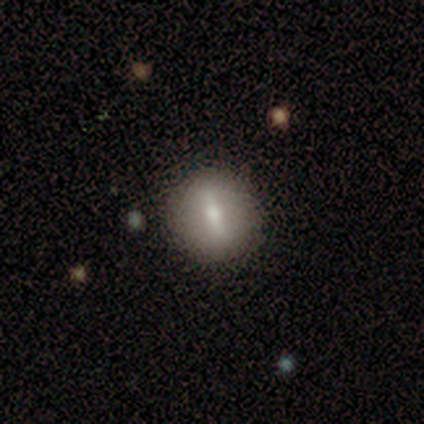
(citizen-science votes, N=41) Smooth or featured? smooth (63%)
How rounded? round (92%)
Merging? none (88%)